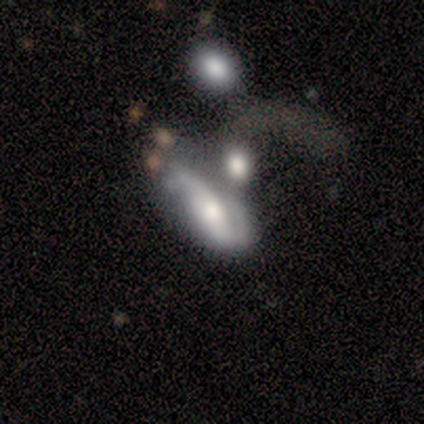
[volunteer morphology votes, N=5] Volunteers were most divided on "spiral arm count" (2-way tie): 2: 50%, can't tell: 50%, 1: 0%, 3: 0%, 4: 0%, more than 4: 0%. More confident: smooth or featured — featured or disk (100%); edge-on disk — no (100%); bar — no (100%); spiral winding — medium (100%); spiral arms — yes (80%); merging — major disturbance (60%); bulge size — moderate (60%).